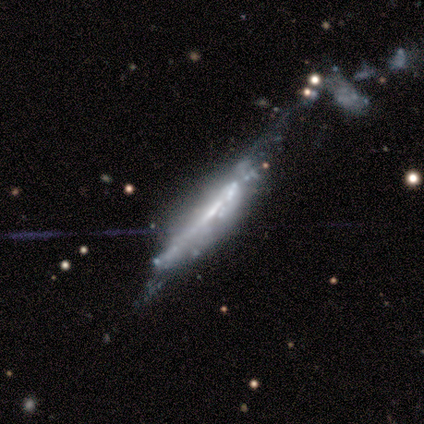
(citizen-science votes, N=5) This appears to be a featured or disk galaxy (100%) viewed edge-on (60%) with a boxy central bulge (67%). Merging: major disturbance (40%).